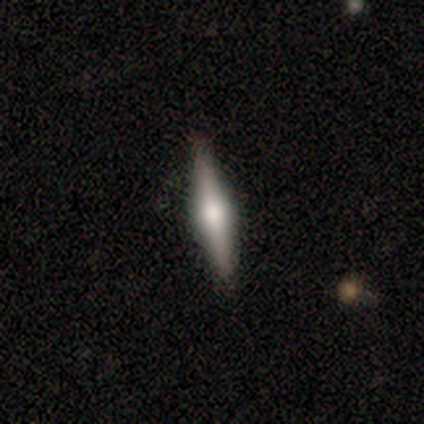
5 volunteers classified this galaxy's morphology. Smooth or featured? featured or disk (60%)
Edge-on disk? yes (100%)
Edge-on bulge? rounded (100%)
Merging? none (100%)